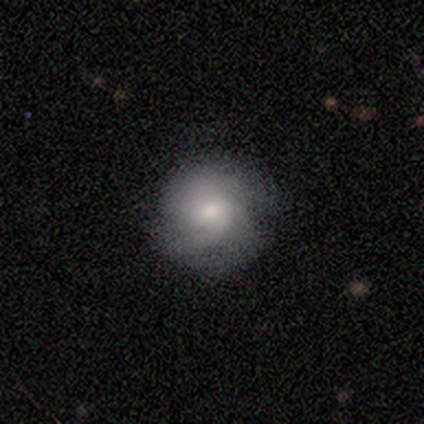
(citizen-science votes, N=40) Smooth or featured: smooth — 48% (featured or disk — 42%)
How rounded: round — 95% (in between — 5%)
Merging: none — 61% (minor disturbance — 31%)